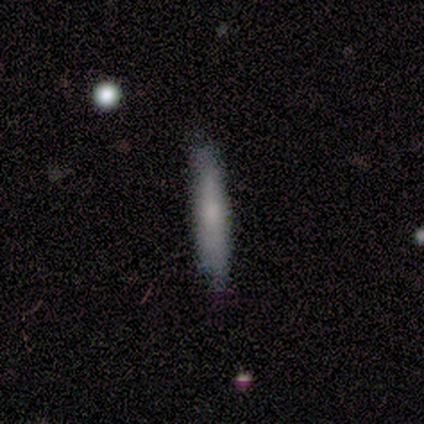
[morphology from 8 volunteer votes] Smooth or featured? smooth (75%)
How rounded? cigar-shaped (100%)
Merging? none (83%)